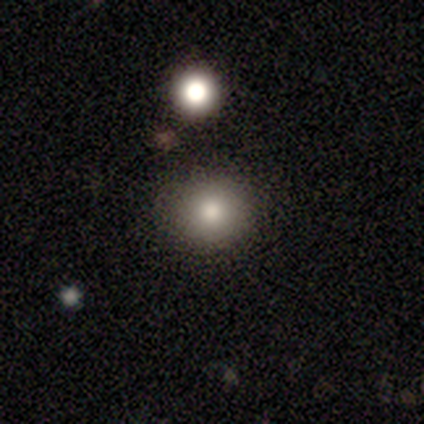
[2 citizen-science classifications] smooth 100%, featured or disk 0%, star or artifact 0%. Down the decision tree: how rounded — round (100%); merging — none (100%).